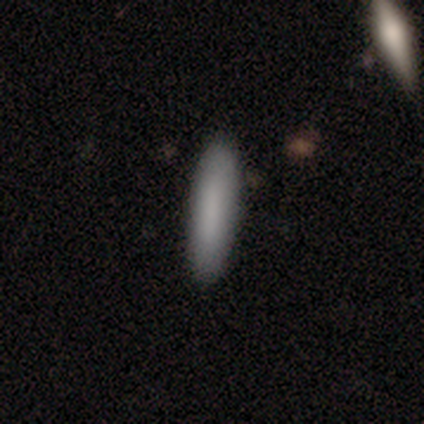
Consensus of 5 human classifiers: Smooth or featured? 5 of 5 (100%) said smooth. How rounded? 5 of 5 (100%) said cigar-shaped. Merging? 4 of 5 (80%) said none.